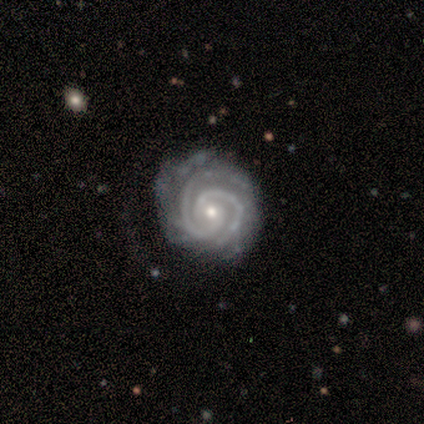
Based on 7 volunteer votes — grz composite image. It shows a featured or disk galaxy (100%) with no bar (71%), 2 (57%) tight (86%) spiral arms (100%) and a small central bulge (86%). Merging: none (57%).